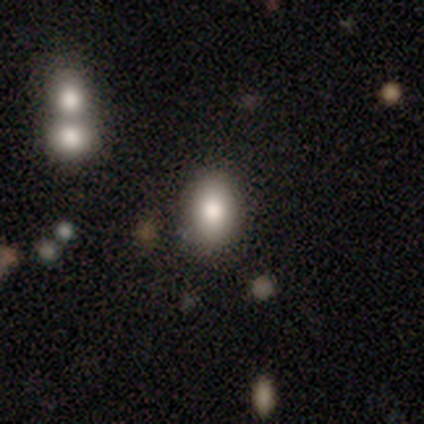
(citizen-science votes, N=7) Overall: smooth (86%). How rounded: in between (100%). Merging: none (86%).